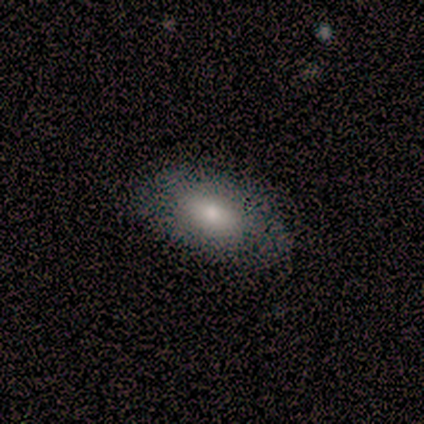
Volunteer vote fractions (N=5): Morphology: type=smooth (80%); roundness=in between (100%); merging=none (80%).